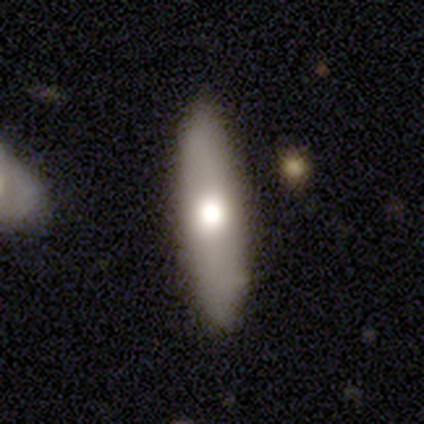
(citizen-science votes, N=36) Smooth or featured? 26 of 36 (72%) said smooth. How rounded? 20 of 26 (77%) said cigar-shaped. Merging? 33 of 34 (97%) said none.